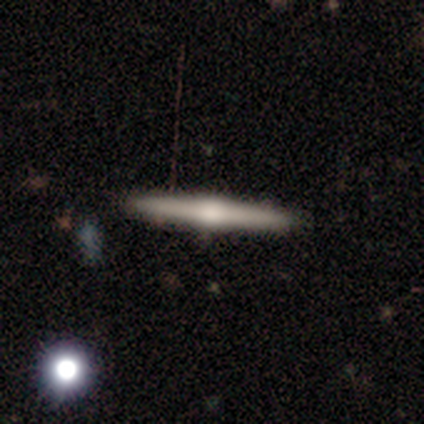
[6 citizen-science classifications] Overall: featured or disk (83%). Edge-on disk: yes (100%). Edge-on bulge: rounded (100%). Merging: none (80%).